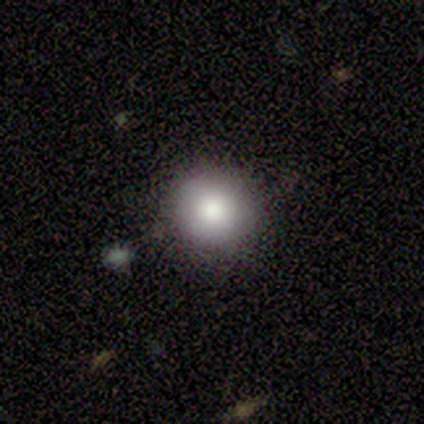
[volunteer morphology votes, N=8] Overall: smooth (75%). How rounded: round (100%). Merging: none (86%).